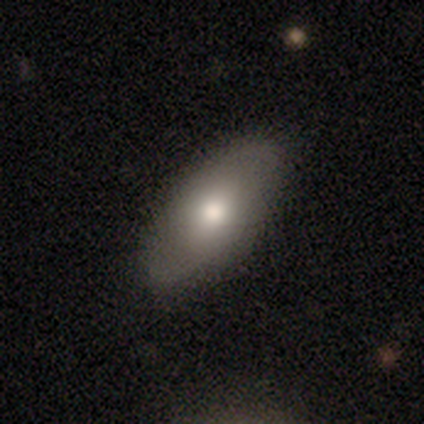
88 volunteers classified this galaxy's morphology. Overall: smooth (76%). How rounded: in between (91%). Merging: none (89%).